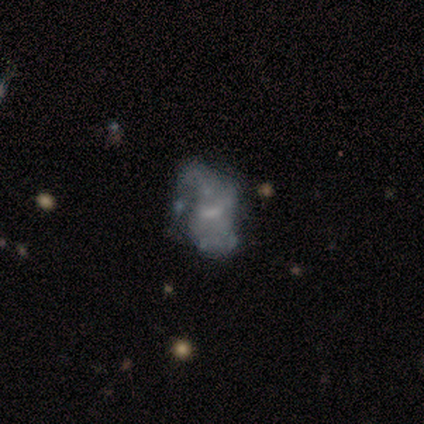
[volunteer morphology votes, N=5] Smooth or featured?
  - featured or disk: 40% * (tied)
  - star or artifact: 40% * (tied)
  - smooth: 20%
Edge-on disk?
  - no: 100% *
  - yes: 0%
Bar?
  - weak: 50% * (tied)
  - no: 50% * (tied)
  - strong: 0%
Spiral arms?
  - yes: 50% * (tied)
  - no: 50% * (tied)
Spiral winding?
  - loose: 100% *
  - tight: 0%
  - medium: 0%
Spiral arm count?
  - can't tell: 100% *
  - 1: 0%
  - 2: 0%
  - 3: 0%
  - 4: 0%
  - more than 4: 0%
Bulge size?
  - small: 100% *
  - dominant: 0%
  - large: 0%
  - moderate: 0%
  - none: 0%
Merging?
  - major disturbance: 67% *
  - merger: 33%
  - none: 0%
  - minor disturbance: 0%